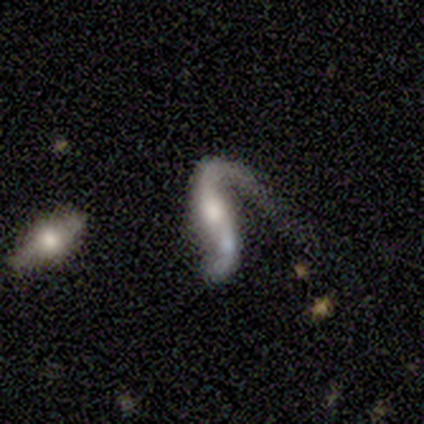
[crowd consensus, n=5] A featured or disk galaxy (80%) with a strong bar (50%, tied with no), 2 (67%) loose (100%) spiral arms (75%) and a moderate central bulge (100%).

Vote fractions:
- Smooth or featured? featured or disk: 80% / smooth: 20% / star or artifact: 0%
- Edge-on disk? no: 100% / yes: 0%
- Bar? strong: 50% (tied) / no: 50% (tied) / weak: 0%
- Spiral arms? yes: 75% / no: 25%
- Spiral winding? loose: 100% / tight: 0% / medium: 0%
- Spiral arm count? 2: 67% / 1: 33% / 3: 0% / 4: 0% / more than 4: 0% / can't tell: 0%
- Bulge size? moderate: 100% / dominant: 0% / large: 0% / small: 0% / none: 0%
- Merging? merger: 40% / none: 20% / minor disturbance: 20% / major disturbance: 20%